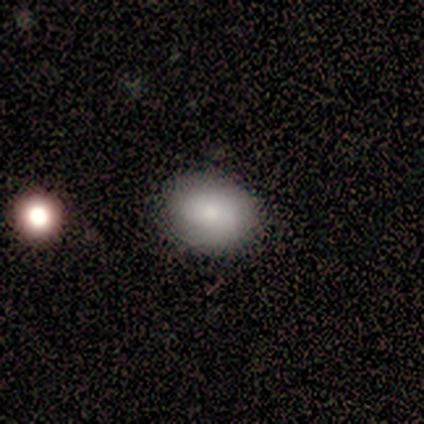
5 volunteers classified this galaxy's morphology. Overall: smooth (100%). How rounded: round (60%; in between 40%). Merging: none (100%).